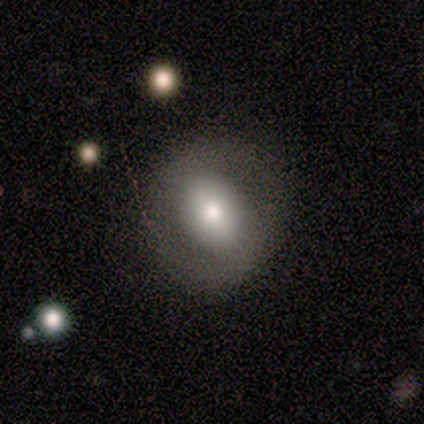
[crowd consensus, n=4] Overall: smooth (50%; featured or disk 25%). How rounded: round (50%, tied with in between). Merging: none (100%).